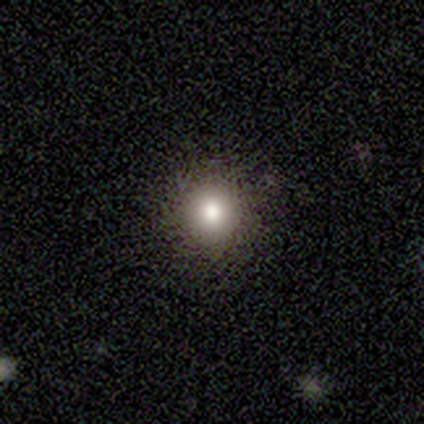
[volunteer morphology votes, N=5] Smooth or featured: smooth — 80% (star or artifact — 20%)
How rounded: round — 100%
Merging: none — 100%